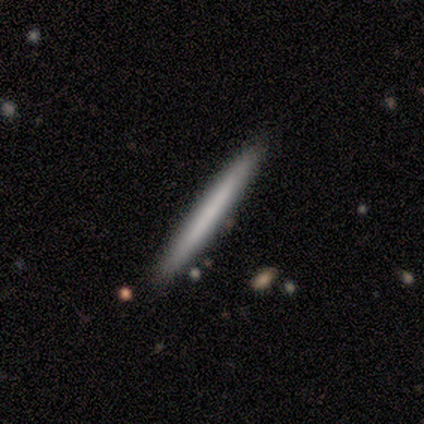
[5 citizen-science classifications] This appears to be a smooth galaxy with no disk features (60%) that is cigar-shaped (100%). Merging: none (100%).